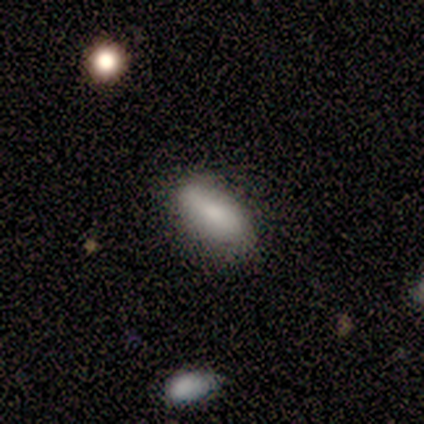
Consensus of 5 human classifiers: A smooth galaxy with no disk features (80%) that is in between round and cigar-shaped (100%). Merging: none (80%).